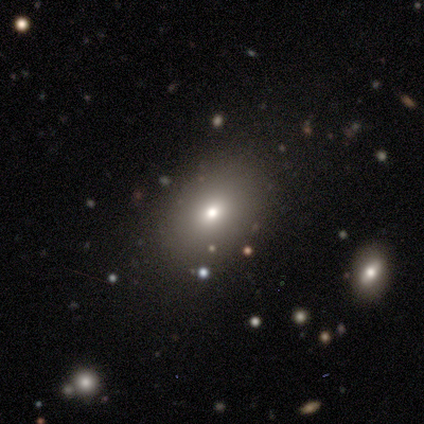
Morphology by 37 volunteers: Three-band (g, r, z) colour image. It shows a smooth galaxy with no disk features (68%) that is in between round and cigar-shaped (60%). Merging: none (83%).